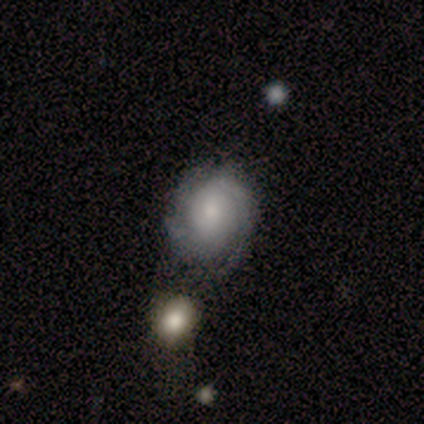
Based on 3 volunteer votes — Volunteers were most divided on "bar": no: 67%, weak: 33%, strong: 0%. More confident: smooth or featured — featured or disk (100%); edge-on disk — no (100%); spiral winding — tight (100%); spiral arm count — can't tell (100%); spiral arms — yes (67%); bulge size — small (67%); merging — none (67%).